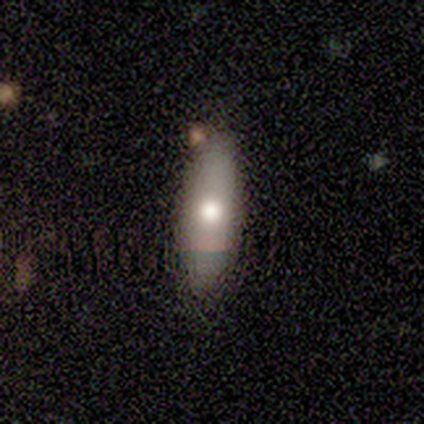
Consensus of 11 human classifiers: A smooth galaxy with no disk features (82%) that is in between round and cigar-shaped (56%).

Vote fractions:
- Smooth or featured? smooth: 82% / featured or disk: 18% / star or artifact: 0%
- How rounded? in between: 56% / cigar-shaped: 44% / round: 0%
- Merging? none: 55% / minor disturbance: 45% / major disturbance: 0% / merger: 0%